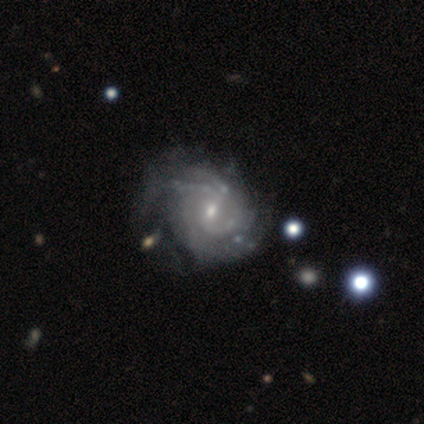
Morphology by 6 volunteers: smooth-or-featured: featured or disk: 100% | smooth: 0% | star or artifact: 0%
  disk-edge-on: no: 100% | yes: 0%
    bar: weak: 83% | no: 17% | strong: 0%
    has-spiral-arms: yes: 100% | no: 0%
      spiral-winding: medium: 50% | tight: 33% | loose: 17%
      spiral-arm-count: 4: 50% | 2: 33% | 3: 17% | 1: 0% | more than 4: 0% | can't tell: 0%
    bulge-size: small: 67% | moderate: 17% | none: 17% | dominant: 0% | large: 0%
  merging: none: 50% | minor disturbance: 33% | major disturbance: 17% | merger: 0%